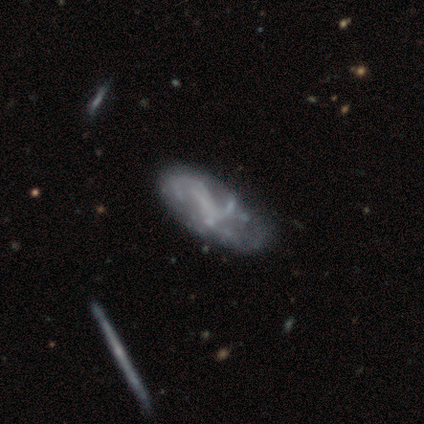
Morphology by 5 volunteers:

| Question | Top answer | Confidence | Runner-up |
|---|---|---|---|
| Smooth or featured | featured or disk | 100% | — |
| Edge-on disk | no | 100% | — |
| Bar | weak | 60% | strong (20%) |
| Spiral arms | yes | 80% | no (20%) |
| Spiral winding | loose | 100% | — |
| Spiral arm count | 1 | 25% | tied: 2 (25%), 3 (25%), can't tell (25%) |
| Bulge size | none | 80% | small (20%) |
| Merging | minor disturbance | 40% | tied: major disturbance (40%) |